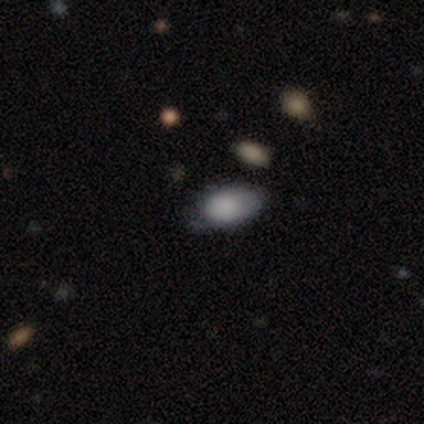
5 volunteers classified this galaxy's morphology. Smooth or featured? 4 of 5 (80%) said smooth. How rounded? 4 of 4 (100%) said in between. Merging? 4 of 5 (80%) said none.